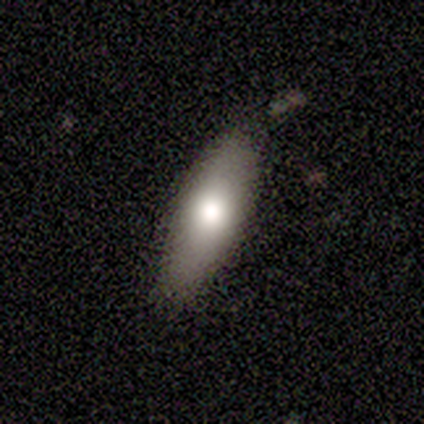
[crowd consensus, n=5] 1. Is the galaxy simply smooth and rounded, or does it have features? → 80% smooth, 20% featured or disk, 0% star or artifact.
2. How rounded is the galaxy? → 100% in between, 0% round, 0% cigar-shaped.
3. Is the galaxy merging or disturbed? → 60% none, 40% minor disturbance, 0% major disturbance, 0% merger.